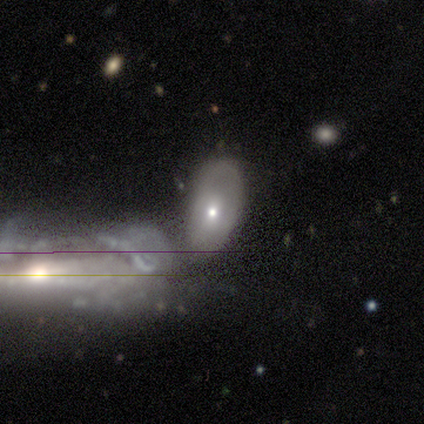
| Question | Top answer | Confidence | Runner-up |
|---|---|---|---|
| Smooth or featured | smooth | 48% | featured or disk (42%) |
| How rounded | in between | 100% | — |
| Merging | merger | 42% | none (31%) |